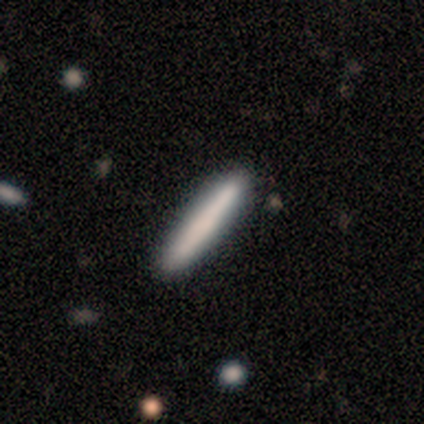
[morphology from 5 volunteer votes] smooth_or_featured: smooth (p=0.80) [alt: featured or disk p=0.20]
how_rounded: cigar-shaped (p=1.00)
merging: none (p=0.80) [alt: minor disturbance p=0.20]